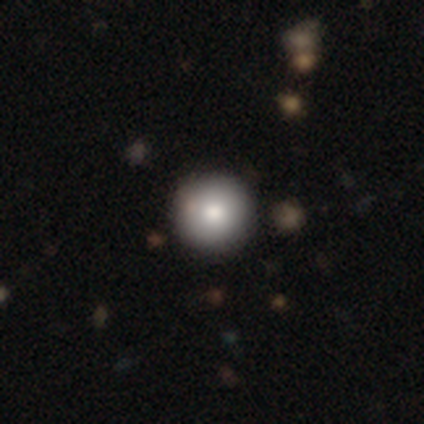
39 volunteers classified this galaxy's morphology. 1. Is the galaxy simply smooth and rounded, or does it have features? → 92% smooth, 5% featured or disk, 3% star or artifact.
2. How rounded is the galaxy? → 97% round, 3% in between, 0% cigar-shaped.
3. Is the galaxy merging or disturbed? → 66% none, 5% merger, 0% minor disturbance, 0% major disturbance.